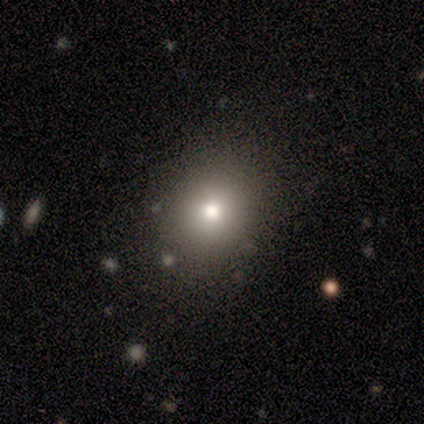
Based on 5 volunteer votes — Smooth or featured? smooth (80%)
How rounded? round (50%, tied with in between)
Merging? none (100%)